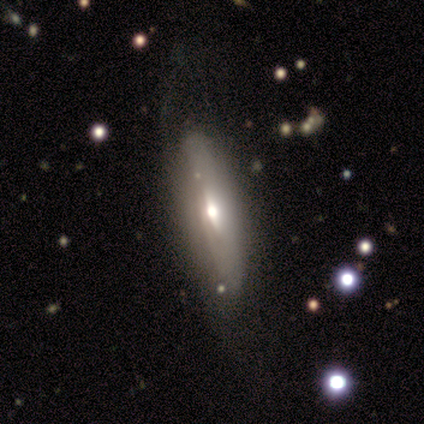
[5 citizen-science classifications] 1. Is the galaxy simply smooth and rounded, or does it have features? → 80% featured or disk, 20% smooth, 0% star or artifact.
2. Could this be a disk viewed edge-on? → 75% no, 25% yes.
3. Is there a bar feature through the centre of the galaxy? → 67% no, 33% weak, 0% strong.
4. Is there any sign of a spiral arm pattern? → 67% no, 33% yes.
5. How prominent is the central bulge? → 67% moderate, 33% small, 0% dominant, 0% large, 0% none.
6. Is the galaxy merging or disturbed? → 80% none, 20% major disturbance, 0% minor disturbance, 0% merger.